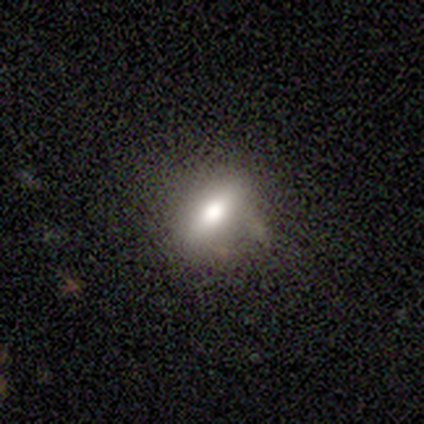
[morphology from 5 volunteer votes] Smooth or featured?
  - featured or disk: 60% *
  - smooth: 40%
  - star or artifact: 0%
Edge-on disk?
  - yes: 67% *
  - no: 33%
Edge-on bulge?
  - rounded: 100% *
  - boxy: 0%
  - none: 0%
Merging?
  - none: 60% *
  - minor disturbance: 40%
  - major disturbance: 0%
  - merger: 0%